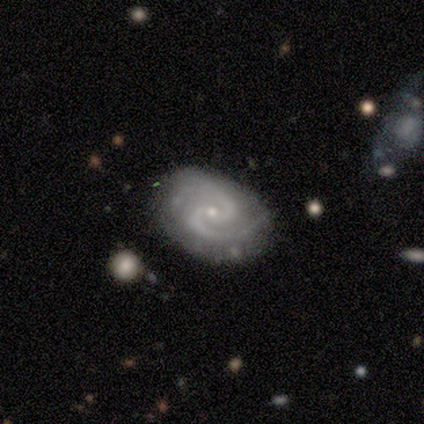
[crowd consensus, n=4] Smooth or featured? featured or disk (100%)
Edge-on disk? no (100%)
Bar? weak (50%, tied with no)
Spiral arms? yes (100%)
Spiral winding? medium (75%)
Spiral arm count? 2 (100%)
Bulge size? small (100%)
Merging? none (75%)